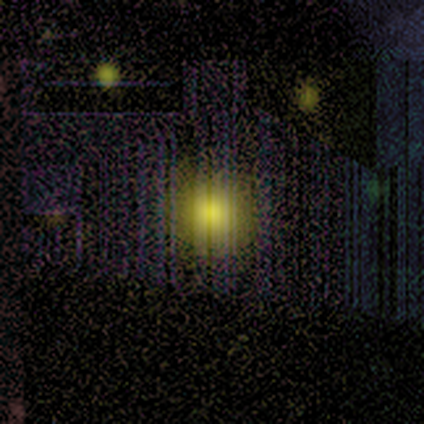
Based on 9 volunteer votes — smooth 89%, star or artifact 11%, featured or disk 0%. Down the decision tree: how rounded — round (75%); merging — none (88%).